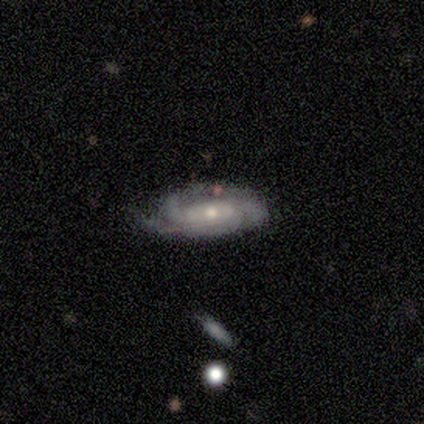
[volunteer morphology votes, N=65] Smooth or featured?
  - featured or disk: 82% *
  - smooth: 14%
  - star or artifact: 5%
Edge-on disk?
  - no: 94% *
  - yes: 6%
Bar?
  - no: 66% *
  - weak: 22%
  - strong: 12%
Spiral arms?
  - yes: 92% *
  - no: 8%
Spiral winding?
  - tight: 67% *
  - medium: 30%
  - loose: 2%
Spiral arm count?
  - can't tell: 37% *
  - 3: 35%
  - 2: 17%
  - 4: 9%
  - more than 4: 2%
  - 1: 0%
Bulge size?
  - small: 60% *
  - moderate: 40%
  - dominant: 0%
  - large: 0%
  - none: 0%
Merging?
  - none: 60% *
  - minor disturbance: 31%
  - major disturbance: 6%
  - merger: 3%